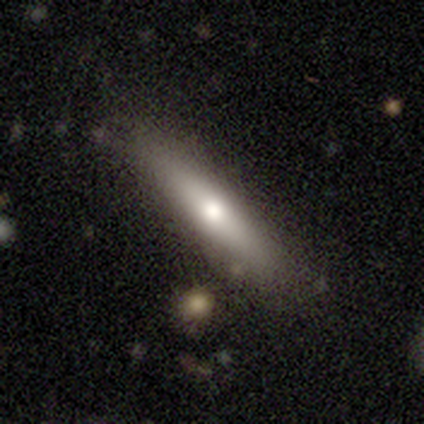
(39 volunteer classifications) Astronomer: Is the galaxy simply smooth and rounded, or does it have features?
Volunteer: smooth — 56% (runner-up: featured or disk, 38%).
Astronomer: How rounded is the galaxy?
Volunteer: cigar-shaped — 91%.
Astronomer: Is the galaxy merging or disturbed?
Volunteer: none — 86%.